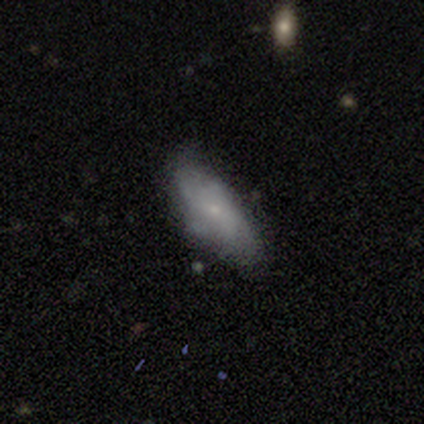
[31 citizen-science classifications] A smooth galaxy with no disk features (52%) that is in between round and cigar-shaped (62%).

Vote fractions:
- Smooth or featured? smooth: 52% / featured or disk: 35% / star or artifact: 13%
- How rounded? in between: 62% / cigar-shaped: 31% / round: 6%
- Merging? none: 67% / minor disturbance: 26% / major disturbance: 7% / merger: 0%